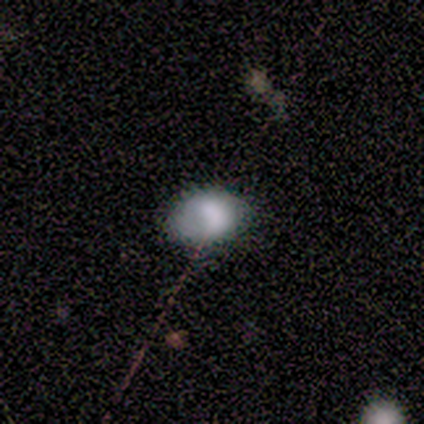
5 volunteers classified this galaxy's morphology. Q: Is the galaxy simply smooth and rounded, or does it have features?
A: smooth — 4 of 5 (80%).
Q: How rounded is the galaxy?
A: in between — 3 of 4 (75%).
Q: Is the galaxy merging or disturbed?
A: none — 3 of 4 (75%).